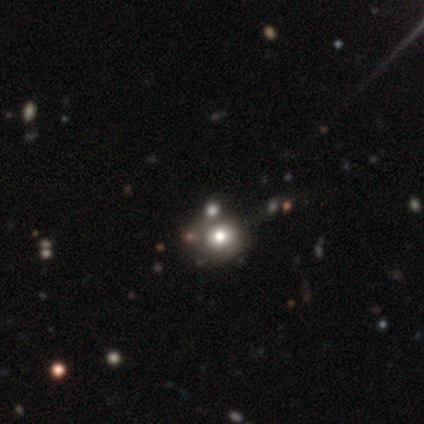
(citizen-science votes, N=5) Smooth or featured? smooth (60%)
How rounded? round (100%)
Merging? none (75%)